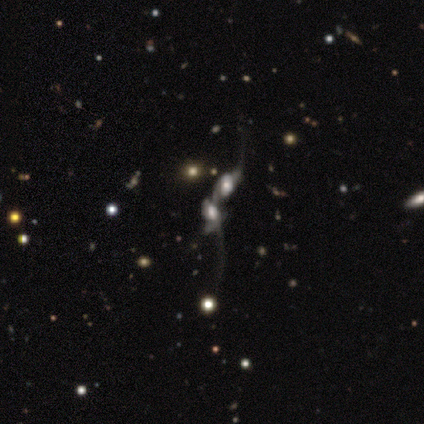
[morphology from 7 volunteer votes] smooth-or-featured: featured or disk: 71% | smooth: 29% | star or artifact: 0%
  disk-edge-on: no: 100% | yes: 0%
    bar: weak: 60% | no: 40% | strong: 0%
    has-spiral-arms: yes: 100% | no: 0%
      spiral-winding: loose: 60% | tight: 20% | medium: 20%
      spiral-arm-count: 2: 40% | 1: 20% | 3: 20% | can't tell: 20% | 4: 0% | more than 4: 0%
    bulge-size: small: 80% | large: 20% | dominant: 0% | moderate: 0% | none: 0%
  merging: merger: 86% | major disturbance: 14% | none: 0% | minor disturbance: 0%